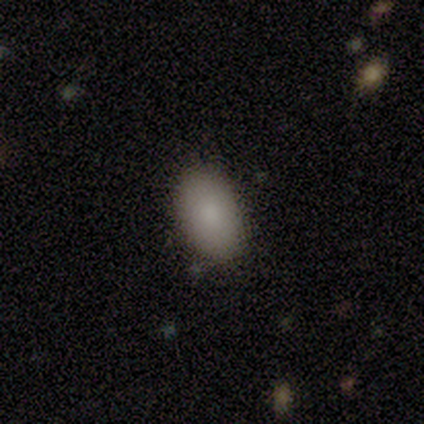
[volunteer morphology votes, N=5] Smooth or featured? smooth (60%)
How rounded? in between (100%)
Merging? none (100%)